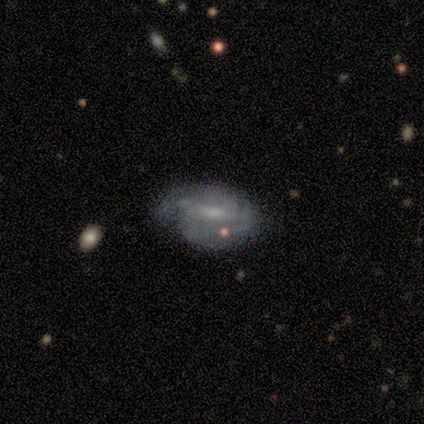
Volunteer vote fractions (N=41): This is likely a featured or disk galaxy (63%). It is clearly not viewed edge-on (96%). Bar: likely weak (64%). Spiral arm pattern: clearly yes (84%). Spiral arm count: likely 2 (71%). Spiral winding: possibly tight (57%). Central bulge: marginally moderate (36%, tied with none). Merging: marginally none (45%).